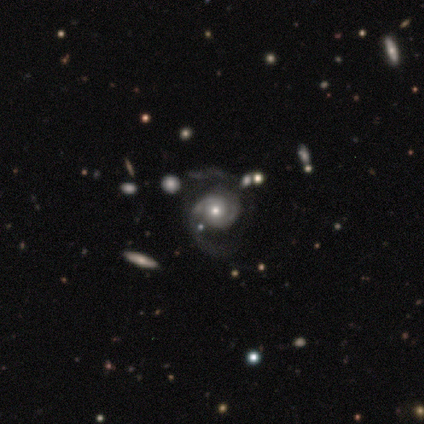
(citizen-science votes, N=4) This is clearly a featured or disk galaxy (100%). It is clearly not viewed edge-on (100%). Bar: likely weak (75%). Spiral arm pattern: clearly yes (100%). Spiral arm count: clearly 2 (100%). Spiral winding: likely medium (75%). Central bulge: likely small (75%). Merging: likely none (75%).